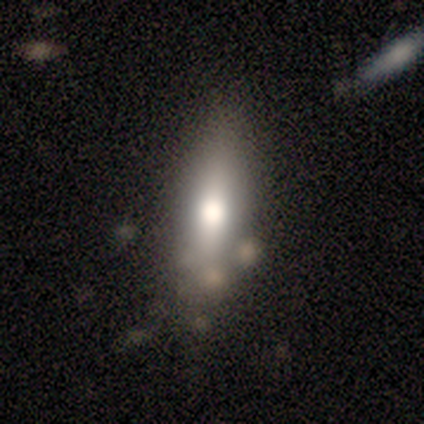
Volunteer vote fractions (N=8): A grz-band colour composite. It shows a smooth galaxy with no disk features (38%, tied with star or artifact) that is cigar-shaped (67%). Merging: none (60%).